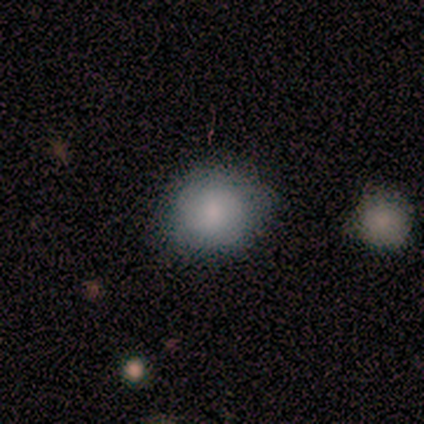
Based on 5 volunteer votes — Smooth or featured: smooth — 60% (featured or disk — 40%)
How rounded: round — 100%
Merging: none — 80% (minor disturbance — 20%)